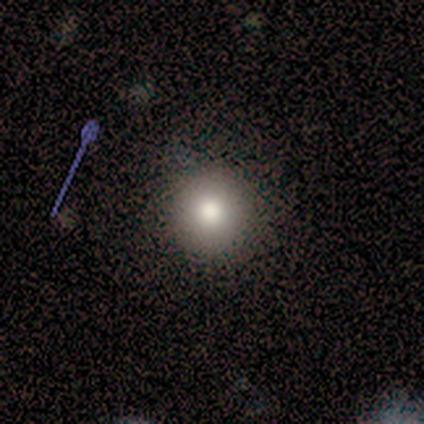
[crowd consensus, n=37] Smooth or featured? smooth (76%)
How rounded? round (89%)
Merging? none (93%)